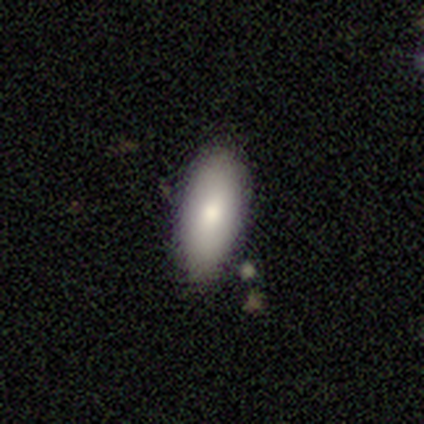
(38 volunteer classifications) A smooth galaxy with no disk features (82%) that is in between round and cigar-shaped (87%).

Vote fractions:
- Smooth or featured? smooth: 82% / featured or disk: 13% / star or artifact: 5%
- How rounded? in between: 87% / cigar-shaped: 13% / round: 0%
- Merging? none: 86% / minor disturbance: 8% / major disturbance: 3% / merger: 3%